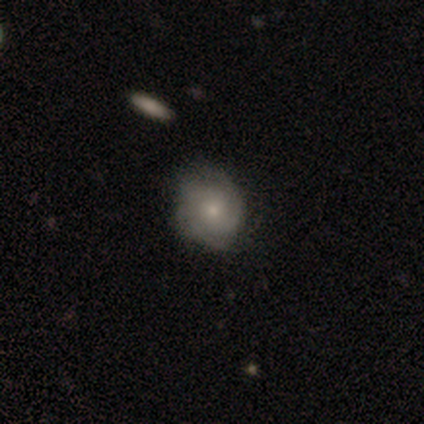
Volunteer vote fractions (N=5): Overall: featured or disk (100%). Edge-on disk: no (100%). Bar: no (100%). Spiral arms: yes (100%). Spiral arm count: 2 (40%, tied with 4). Spiral winding: tight (60%; medium 40%). Bulge size: moderate (60%; small 40%). Merging: none (40%; minor disturbance 20%).